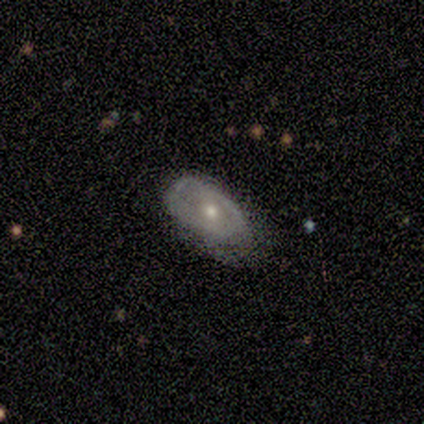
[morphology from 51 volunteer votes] A featured or disk galaxy (71%) with no bar (74%), no spiral arms (54%) and a moderate central bulge (74%).

Vote fractions:
- Smooth or featured? featured or disk: 71% / smooth: 24% / star or artifact: 6%
- Edge-on disk? no: 97% / yes: 3%
- Bar? no: 74% / weak: 23% / strong: 3%
- Spiral arms? no: 54% / yes: 46%
- Bulge size? moderate: 74% / small: 23% / large: 3% / dominant: 0% / none: 0%
- Merging? none: 50% / minor disturbance: 35% / major disturbance: 15% / merger: 0%